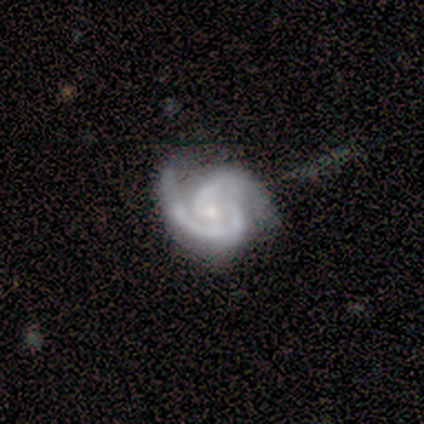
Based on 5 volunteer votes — Smooth or featured? featured or disk (100%)
Edge-on disk? no (100%)
Bar? no (80%)
Spiral arms? yes (100%)
Spiral winding? medium (60%)
Spiral arm count? 2 (80%)
Bulge size? moderate (60%)
Merging? none (80%)